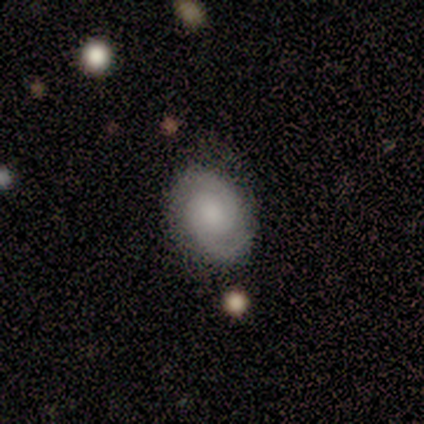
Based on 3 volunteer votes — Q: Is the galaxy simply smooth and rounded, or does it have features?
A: featured or disk — 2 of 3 (67%).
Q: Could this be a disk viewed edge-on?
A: yes — 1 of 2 (50%, tied with no).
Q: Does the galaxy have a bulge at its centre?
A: boxy — 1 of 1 (100%).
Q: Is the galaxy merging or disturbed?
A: minor disturbance — 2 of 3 (67%).